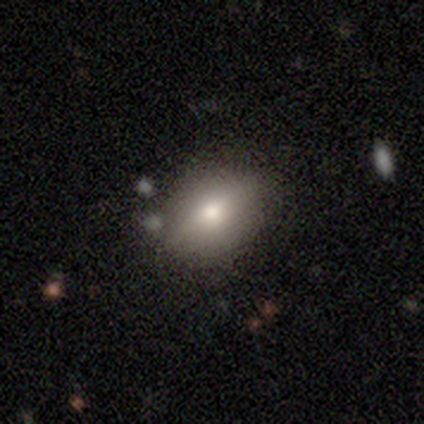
Overall: smooth (100%). How rounded: in between (67%; round 33%). Merging: none (100%).